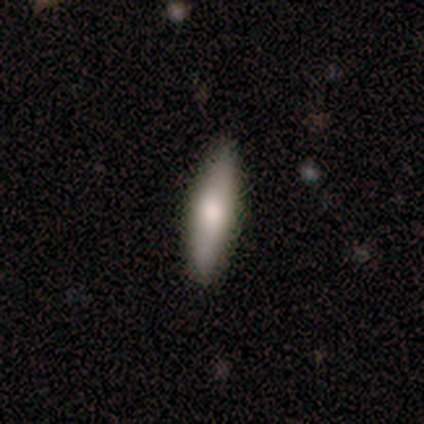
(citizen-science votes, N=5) smooth 60%, featured or disk 20%, star or artifact 20%. Down the decision tree: how rounded — cigar-shaped (67%); merging — none (50%, tied with minor disturbance).